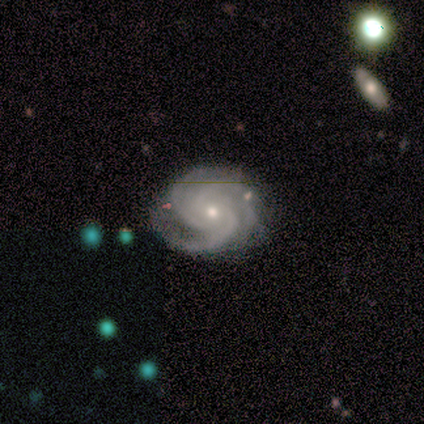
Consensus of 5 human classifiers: Morphology: type=featured or disk (100%); edge-on=no (100%); bar=no (60%); spiral arms=yes (100%); winding=tight (80%); arm count=3 (60%); bulge=small (80%); merging=none (100%).